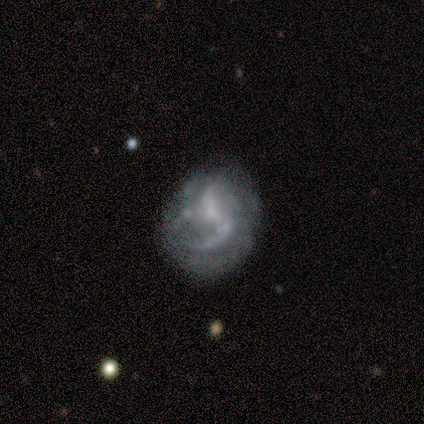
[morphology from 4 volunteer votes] Q: Smooth or featured?
A: featured or disk (75%); runner-up: star or artifact (25%)
Q: Edge-on disk?
A: no (100%)
Q: Bar?
A: no (67%); runner-up: weak (33%)
Q: Spiral arms?
A: yes (67%); runner-up: no (33%)
Q: Spiral winding?
A: tight (50%); tied with: loose (50%)
Q: Spiral arm count?
A: 1 (50%); tied with: 2 (50%)
Q: Bulge size?
A: none (67%); runner-up: moderate (33%)
Q: Merging?
A: none (67%); runner-up: minor disturbance (33%)